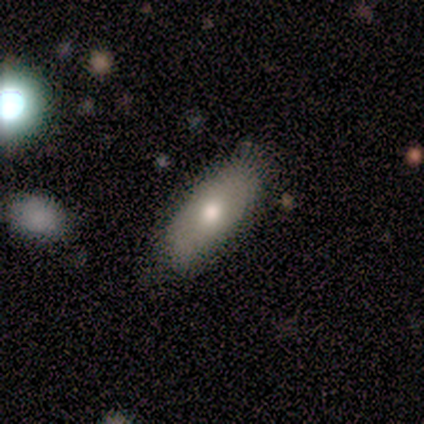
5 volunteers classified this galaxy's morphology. Smooth or featured?
  - featured or disk: 60% *
  - smooth: 40%
  - star or artifact: 0%
Edge-on disk?
  - yes: 67% *
  - no: 33%
Edge-on bulge?
  - rounded: 100% *
  - boxy: 0%
  - none: 0%
Merging?
  - none: 80% *
  - minor disturbance: 20%
  - major disturbance: 0%
  - merger: 0%